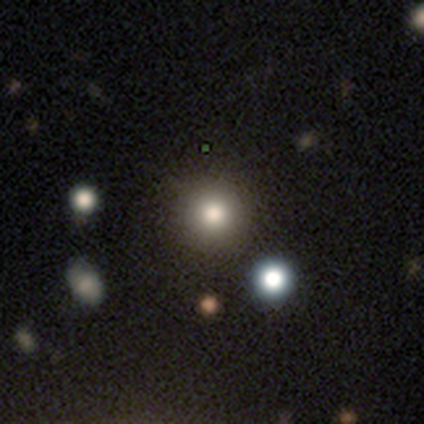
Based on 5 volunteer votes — smooth_or_featured: star or artifact (p=0.60) [alt: smooth p=0.20]